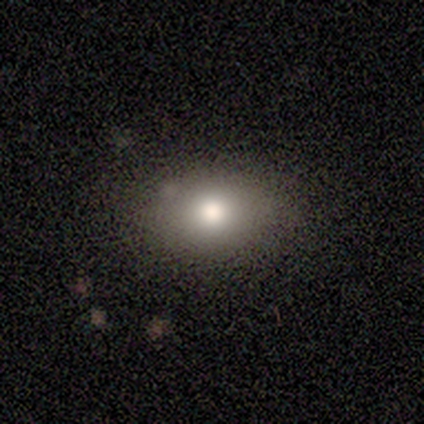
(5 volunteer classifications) Smooth or featured? smooth (100%)
How rounded? in between (80%)
Merging? none (100%)